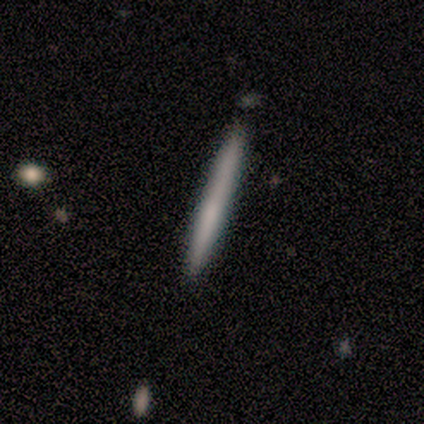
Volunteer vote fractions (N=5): Smooth or featured? smooth (80%)
How rounded? cigar-shaped (100%)
Merging? none (100%)